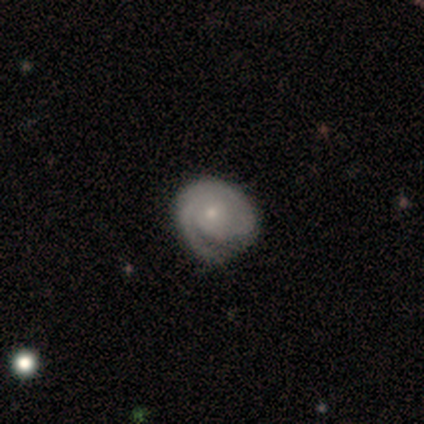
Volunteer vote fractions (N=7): smooth-or-featured: featured or disk: 71% | smooth: 14% | star or artifact: 14%
  disk-edge-on: no: 80% | yes: 20%
    bar: no: 75% | strong: 25% | weak: 0%
    has-spiral-arms: yes: 100% | no: 0%
      spiral-winding: tight: 100% | medium: 0% | loose: 0%
      spiral-arm-count: 1: 75% | 2: 25% | 3: 0% | 4: 0% | more than 4: 0% | can't tell: 0%
    bulge-size: small: 75% | moderate: 25% | dominant: 0% | large: 0% | none: 0%
  merging: none: 50% | minor disturbance: 33% | major disturbance: 17% | merger: 0%